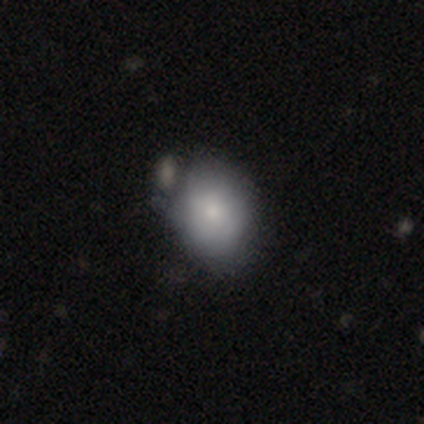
Smooth or featured? smooth (68%)
How rounded? in between (63%)
Merging? none (51%)